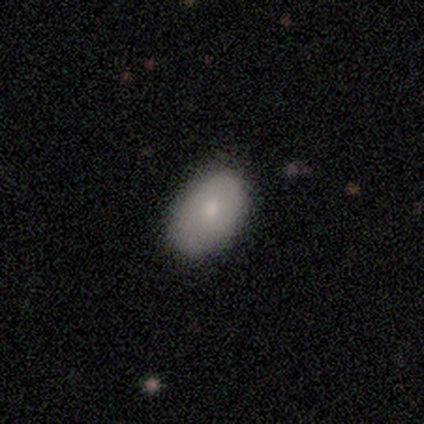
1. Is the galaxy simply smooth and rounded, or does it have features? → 80% smooth, 20% featured or disk, 0% star or artifact.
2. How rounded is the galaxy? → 75% in between, 25% round, 0% cigar-shaped.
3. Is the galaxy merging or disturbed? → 100% none, 0% minor disturbance, 0% major disturbance, 0% merger.